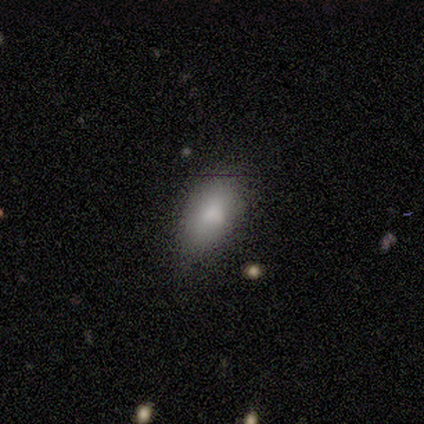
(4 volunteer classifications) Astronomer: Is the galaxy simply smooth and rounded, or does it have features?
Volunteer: smooth — 100%.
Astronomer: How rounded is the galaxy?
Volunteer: in between — 100%.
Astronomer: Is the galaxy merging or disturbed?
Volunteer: none — 50%, tied with minor disturbance at 50%.